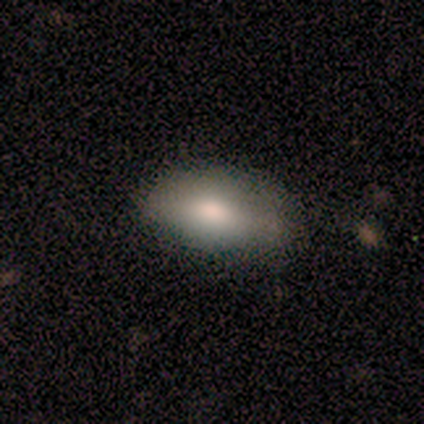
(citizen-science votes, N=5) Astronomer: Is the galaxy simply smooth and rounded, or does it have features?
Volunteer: smooth — 60% (runner-up: star or artifact, 40%).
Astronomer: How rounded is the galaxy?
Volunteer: in between — 100%.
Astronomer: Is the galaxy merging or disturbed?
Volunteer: minor disturbance — 67%.